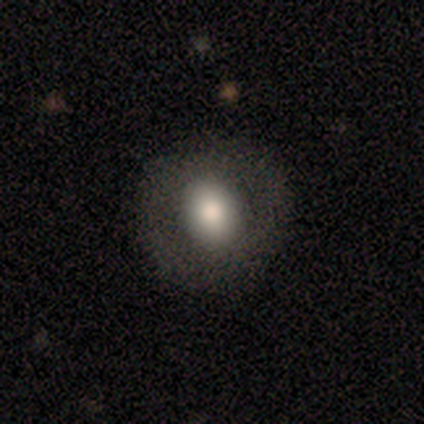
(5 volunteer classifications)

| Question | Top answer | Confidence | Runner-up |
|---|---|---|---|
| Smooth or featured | smooth | 80% | featured or disk (20%) |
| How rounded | round | 50% | tied: in between (50%) |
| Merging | none | 100% | — |